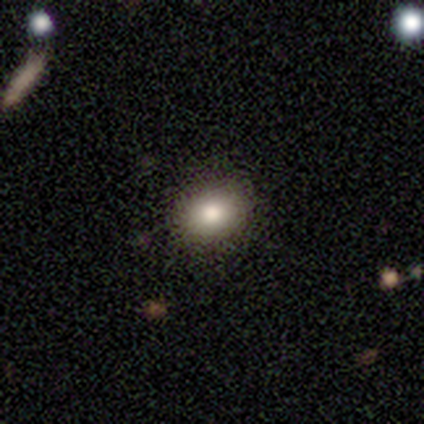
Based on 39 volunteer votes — Smooth or featured?
  - smooth: 87% *
  - featured or disk: 8%
  - star or artifact: 5%
How rounded?
  - in between: 62% *
  - round: 38%
  - cigar-shaped: 0%
Merging?
  - none: 51% *
  - merger: 5%
  - minor disturbance: 3%
  - major disturbance: 0%